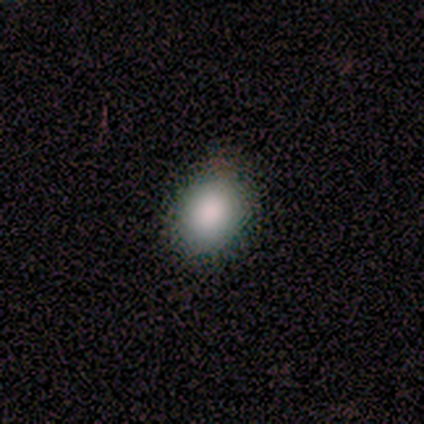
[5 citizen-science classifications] Q: Smooth or featured?
A: smooth (100%)
Q: How rounded?
A: in between (60%); runner-up: round (40%)
Q: Merging?
A: none (100%)